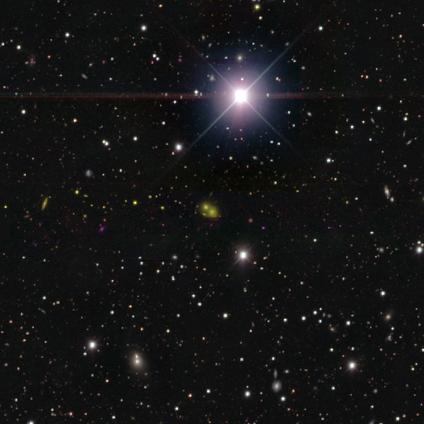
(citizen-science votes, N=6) Consensus on every question: smooth or featured — star or artifact (100%).